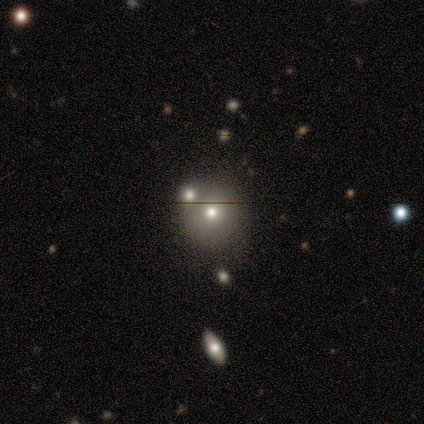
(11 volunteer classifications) Smooth or featured?
  - smooth: 73% *
  - featured or disk: 18%
  - star or artifact: 9%
How rounded?
  - round: 75% *
  - in between: 25%
  - cigar-shaped: 0%
Merging?
  - merger: 40% *
  - none: 30%
  - minor disturbance: 20%
  - major disturbance: 10%